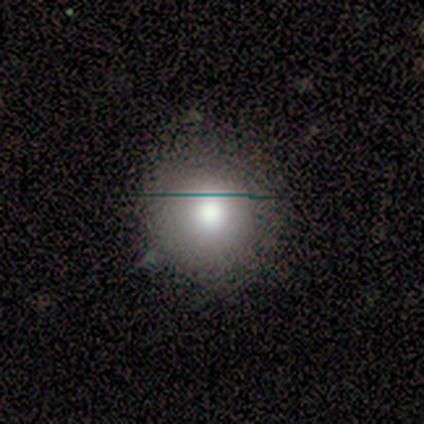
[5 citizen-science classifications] Q: Smooth or featured?
A: smooth (100%)
Q: How rounded?
A: round (80%); runner-up: in between (20%)
Q: Merging?
A: none (80%); runner-up: minor disturbance (20%)